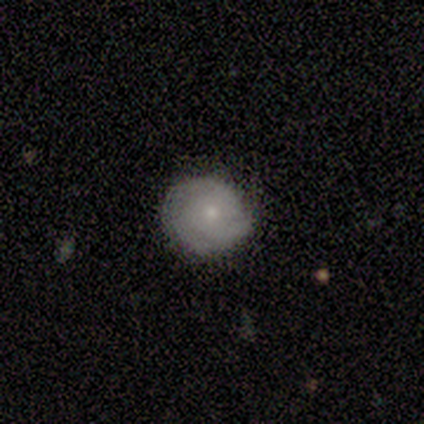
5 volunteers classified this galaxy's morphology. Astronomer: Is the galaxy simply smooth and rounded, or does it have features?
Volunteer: featured or disk — 60% (runner-up: smooth, 40%).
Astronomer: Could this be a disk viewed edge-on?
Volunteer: no — 100%.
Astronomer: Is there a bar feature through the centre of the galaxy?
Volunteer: no — 100%.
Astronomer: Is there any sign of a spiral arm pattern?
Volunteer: yes — 100%.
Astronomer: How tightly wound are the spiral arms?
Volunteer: tight — 67%.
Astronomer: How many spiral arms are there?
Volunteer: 1 — 33%, tied with 2 and 3 at 33%.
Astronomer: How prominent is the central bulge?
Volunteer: large — 33%, tied with moderate and small at 33%.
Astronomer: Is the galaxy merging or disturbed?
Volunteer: none — 80%.